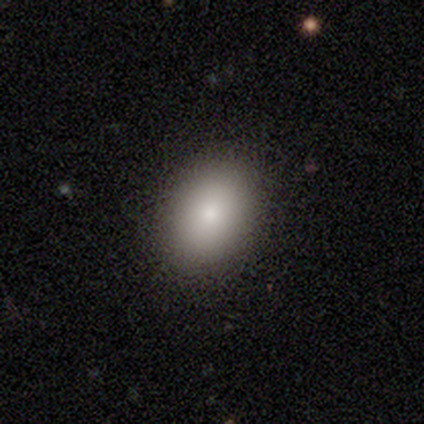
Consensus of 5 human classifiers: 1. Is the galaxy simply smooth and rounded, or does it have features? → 80% smooth, 20% featured or disk, 0% star or artifact.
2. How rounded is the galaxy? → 100% round, 0% in between, 0% cigar-shaped.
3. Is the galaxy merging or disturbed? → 100% none, 0% minor disturbance, 0% major disturbance, 0% merger.